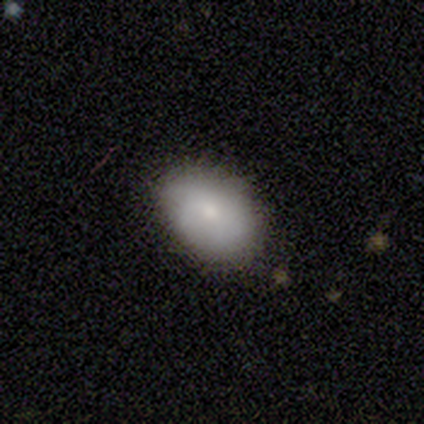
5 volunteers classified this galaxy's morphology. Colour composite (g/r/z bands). It shows a smooth galaxy with no disk features (80%) that is in between round and cigar-shaped (75%). Merging: none (60%).